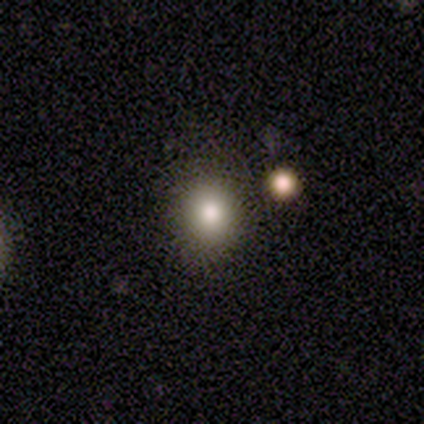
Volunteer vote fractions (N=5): Morphology: type=smooth (60%); roundness=round (100%); merging=none (75%).